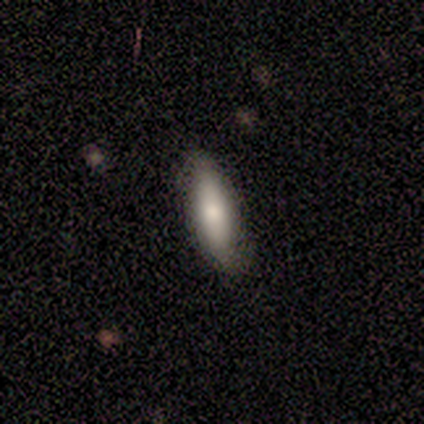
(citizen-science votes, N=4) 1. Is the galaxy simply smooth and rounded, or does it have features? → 75% smooth, 25% featured or disk, 0% star or artifact.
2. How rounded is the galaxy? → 100% in between, 0% round, 0% cigar-shaped.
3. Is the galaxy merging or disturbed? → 75% none, 25% minor disturbance, 0% major disturbance, 0% merger.